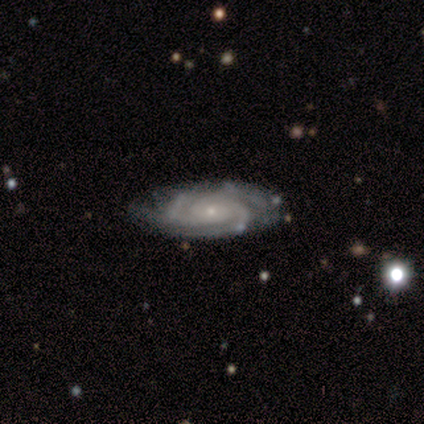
smooth-or-featured: featured or disk: 100% | smooth: 0% | star or artifact: 0%
  disk-edge-on: no: 100% | yes: 0%
    bar: no: 50% | weak: 33% | strong: 17%
    has-spiral-arms: yes: 100% | no: 0%
      spiral-winding: tight: 100% | medium: 0% | loose: 0%
      spiral-arm-count: 3: 50% | 2: 17% | more than 4: 17% | can't tell: 17% | 1: 0% | 4: 0%
    bulge-size: small: 83% | large: 17% | dominant: 0% | moderate: 0% | none: 0%
  merging: none: 83% | minor disturbance: 17% | major disturbance: 0% | merger: 0%